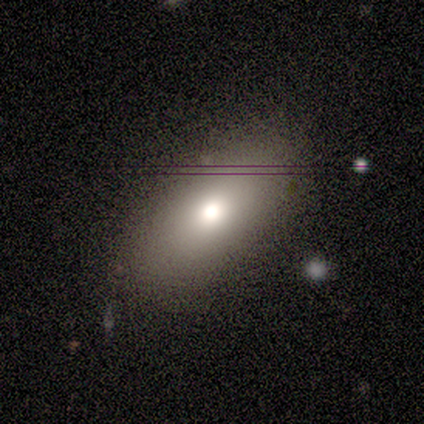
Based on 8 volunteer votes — A smooth galaxy with no disk features (88%) that is in between round and cigar-shaped (100%). Merging: none (88%).